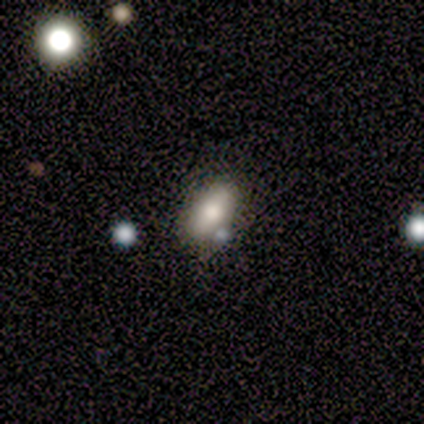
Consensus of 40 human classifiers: Smooth or featured?
  - smooth: 78% *
  - star or artifact: 12%
  - featured or disk: 10%
How rounded?
  - in between: 81% *
  - cigar-shaped: 13%
  - round: 6%
Merging?
  - none: 71% *
  - minor disturbance: 17%
  - merger: 11%
  - major disturbance: 0%